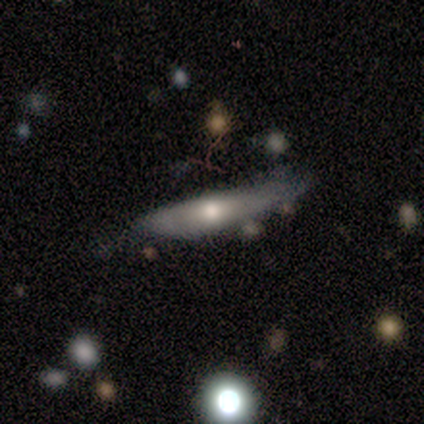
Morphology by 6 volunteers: This appears to be a featured or disk galaxy (100%) viewed edge-on (83%) with a rounded central bulge (80%). Merging: none (67%).